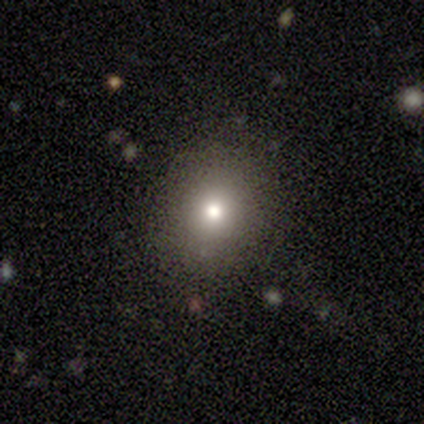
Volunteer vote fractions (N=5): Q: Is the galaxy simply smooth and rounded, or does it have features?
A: smooth — 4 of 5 (80%).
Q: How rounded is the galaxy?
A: round — 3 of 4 (75%).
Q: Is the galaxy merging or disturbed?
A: none — 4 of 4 (100%).